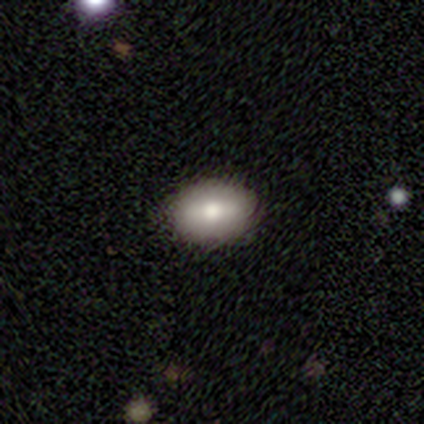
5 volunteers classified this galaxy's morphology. Smooth or featured? featured or disk (60%)
Edge-on disk? no (67%)
Bar? strong (50%, tied with no)
Spiral arms? no (100%)
Bulge size? large (50%, tied with small)
Merging? none (100%)